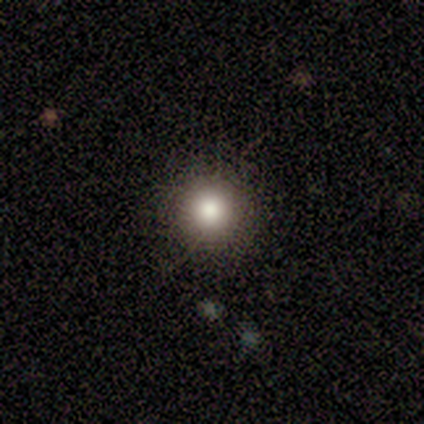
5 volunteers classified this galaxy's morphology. Smooth or featured?
  - smooth: 80% *
  - featured or disk: 20%
  - star or artifact: 0%
How rounded?
  - round: 100% *
  - in between: 0%
  - cigar-shaped: 0%
Merging?
  - none: 60% *
  - minor disturbance: 40%
  - major disturbance: 0%
  - merger: 0%